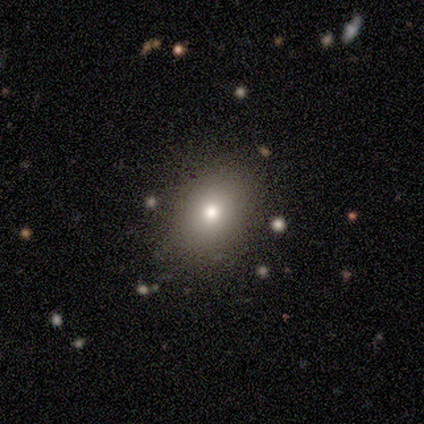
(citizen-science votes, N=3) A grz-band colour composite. It shows a smooth galaxy with no disk features (100%) that is in between round and cigar-shaped (67%). Merging: none (100%).